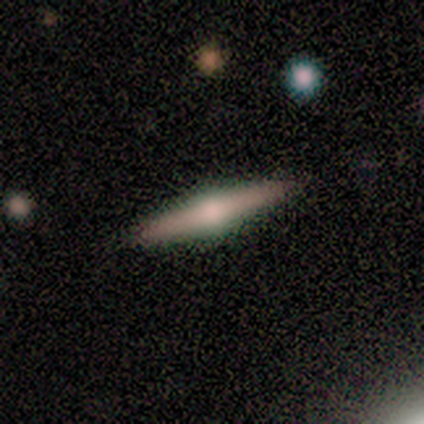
featured or disk 60%, smooth 40%, star or artifact 0%. Down the decision tree: edge-on disk — yes (100%); edge-on bulge — rounded (100%); merging — none (100%).